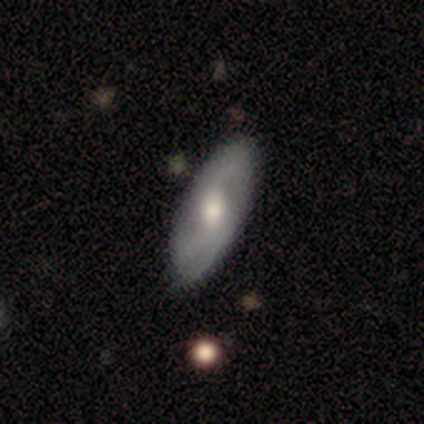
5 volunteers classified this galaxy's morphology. A featured or disk galaxy (60%) with a weak bar (100%), 1 (33%, tied with 2 and 3) tight (33%, tied with medium and loose) spiral arms (100%) and a moderate central bulge (67%).

Vote fractions:
- Smooth or featured? featured or disk: 60% / smooth: 40% / star or artifact: 0%
- Edge-on disk? no: 100% / yes: 0%
- Bar? weak: 100% / strong: 0% / no: 0%
- Spiral arms? yes: 100% / no: 0%
- Spiral winding? tight: 33% (tied) / medium: 33% (tied) / loose: 33% (tied)
- Spiral arm count? 1: 33% (tied) / 2: 33% (tied) / 3: 33% (tied) / 4: 0% / more than 4: 0% / can't tell: 0%
- Bulge size? moderate: 67% / small: 33% / dominant: 0% / large: 0% / none: 0%
- Merging? none: 80% / minor disturbance: 20% / major disturbance: 0% / merger: 0%